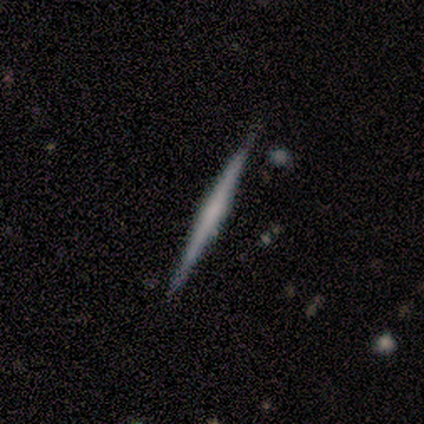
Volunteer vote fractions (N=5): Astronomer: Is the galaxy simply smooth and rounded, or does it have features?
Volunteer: featured or disk — 60% (runner-up: smooth, 40%).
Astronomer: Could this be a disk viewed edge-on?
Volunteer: yes — 100%.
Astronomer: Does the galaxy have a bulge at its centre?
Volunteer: boxy — 33%, tied with none and rounded at 33%.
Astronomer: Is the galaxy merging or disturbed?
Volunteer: none — 100%.